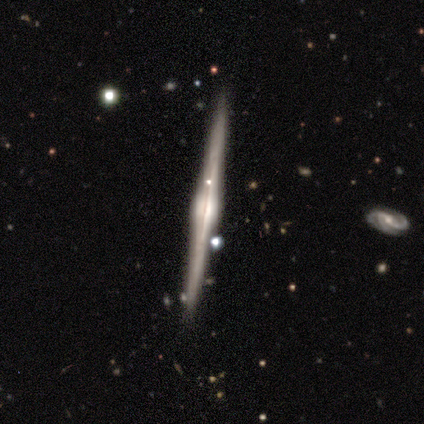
Q: Smooth or featured?
A: featured or disk (95%); runner-up: smooth (2%)
Q: Edge-on disk?
A: yes (95%); runner-up: no (5%)
Q: Edge-on bulge?
A: rounded (83%); runner-up: boxy (14%)
Q: Merging?
A: none (90%); runner-up: minor disturbance (8%)